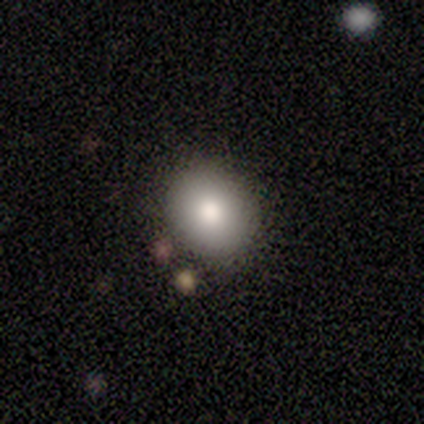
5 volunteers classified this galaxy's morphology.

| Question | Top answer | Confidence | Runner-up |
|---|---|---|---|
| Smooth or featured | smooth | 100% | — |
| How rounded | round | 60% | in between (40%) |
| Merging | none | 100% | — |